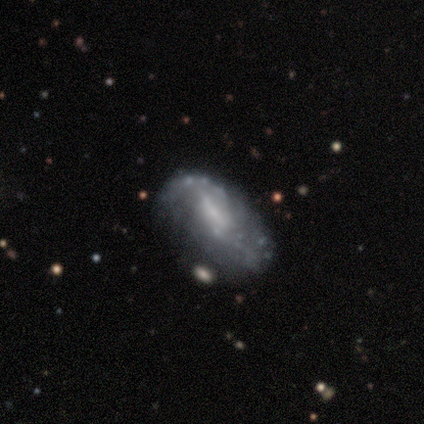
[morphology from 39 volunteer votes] This appears to be a featured or disk galaxy (69%) with no bar (54%), loose (64%) spiral arms (54%) and no central bulge (54%). Merging: none (51%).